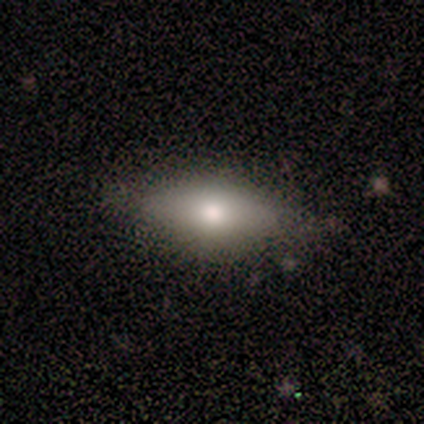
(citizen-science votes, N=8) Morphology: type=smooth (62%); roundness=cigar-shaped (60%); merging=none (100%).